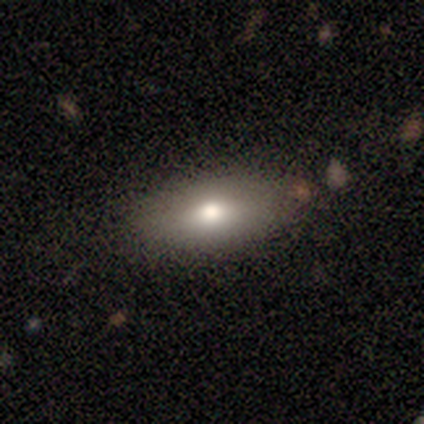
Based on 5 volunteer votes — smooth-or-featured: smooth: 80% | featured or disk: 20% | star or artifact: 0%
  how-rounded: in between: 100% | round: 0% | cigar-shaped: 0%
  merging: none: 60% | minor disturbance: 40% | major disturbance: 0% | merger: 0%